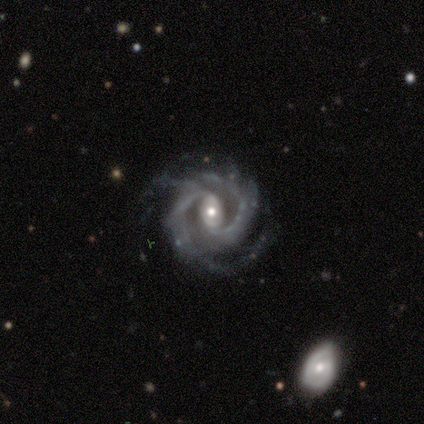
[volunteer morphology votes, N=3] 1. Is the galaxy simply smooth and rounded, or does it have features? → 100% featured or disk, 0% smooth, 0% star or artifact.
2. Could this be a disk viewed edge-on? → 100% no, 0% yes.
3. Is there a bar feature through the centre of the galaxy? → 33% strong (tied), 33% weak (tied), 33% no (tied).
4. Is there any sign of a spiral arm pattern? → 100% yes, 0% no.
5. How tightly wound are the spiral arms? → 67% tight, 33% medium, 0% loose.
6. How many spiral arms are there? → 67% 3, 33% 2, 0% 1, 0% 4, 0% more than 4, 0% can't tell.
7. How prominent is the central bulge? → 33% large (tied), 33% moderate (tied), 33% small (tied), 0% dominant, 0% none.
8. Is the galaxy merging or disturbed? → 67% none, 33% major disturbance, 0% minor disturbance, 0% merger.